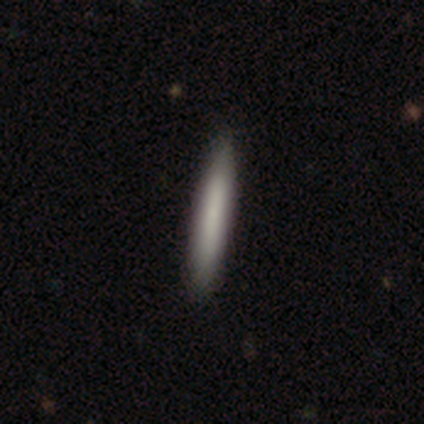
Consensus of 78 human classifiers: Smooth or featured? 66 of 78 (85%) said smooth. How rounded? 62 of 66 (94%) said cigar-shaped. Merging? 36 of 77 (47%) said none.